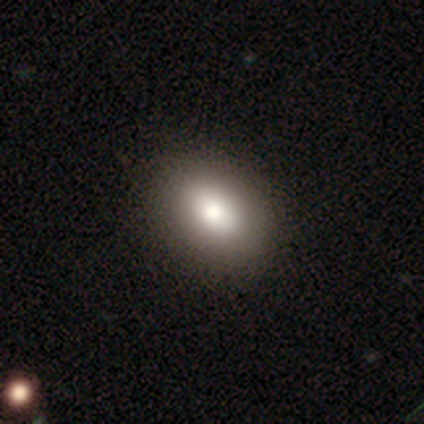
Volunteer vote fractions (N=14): Smooth or featured? smooth (86%)
How rounded? in between (92%)
Merging? none (85%)